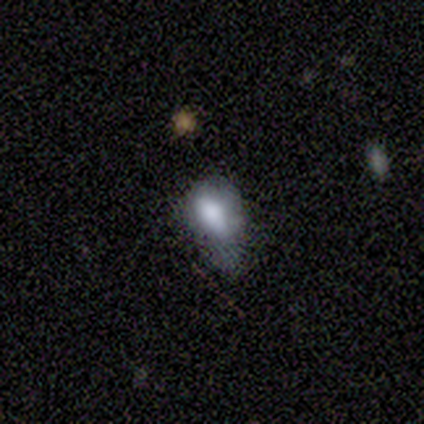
This is likely a smooth galaxy (60%). How rounded: clearly in between (100%). Merging: clearly minor disturbance (100%).